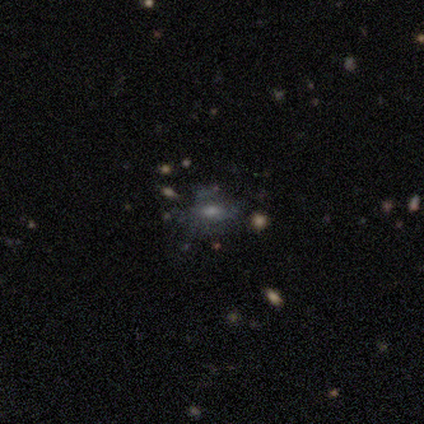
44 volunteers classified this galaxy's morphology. smooth-or-featured: featured or disk: 50% | smooth: 34% | star or artifact: 16%
  disk-edge-on: no: 91% | yes: 9%
    bar: no: 70% | weak: 25% | strong: 5%
    has-spiral-arms: no: 80% | yes: 20%
    bulge-size: moderate: 50% | small: 25% | dominant: 10% | none: 10% | large: 5%
  merging: none: 38% | minor disturbance: 32% | major disturbance: 22% | merger: 8%